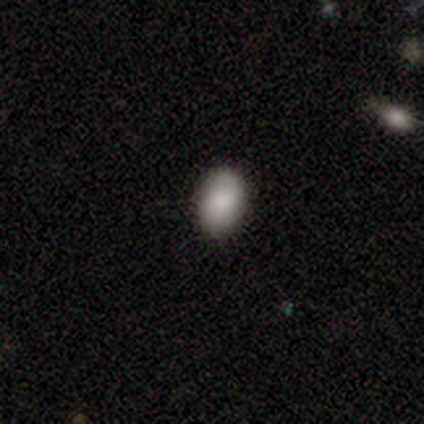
Smooth or featured? smooth (100%)
How rounded? in between (100%)
Merging? none (100%)